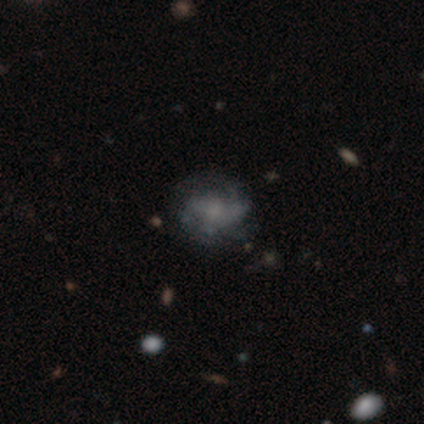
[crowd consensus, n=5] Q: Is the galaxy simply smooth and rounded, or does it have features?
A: featured or disk — 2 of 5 (40%, tied with star or artifact).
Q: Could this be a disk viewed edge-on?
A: no — 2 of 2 (100%).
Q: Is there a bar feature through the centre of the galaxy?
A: no — 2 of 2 (100%).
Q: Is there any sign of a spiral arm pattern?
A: yes — 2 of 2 (100%).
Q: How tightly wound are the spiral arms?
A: tight — 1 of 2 (50%, tied with medium).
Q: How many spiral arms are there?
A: can't tell — 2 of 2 (100%).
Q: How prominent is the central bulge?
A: none — 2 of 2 (100%).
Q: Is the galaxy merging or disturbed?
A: none — 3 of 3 (100%).